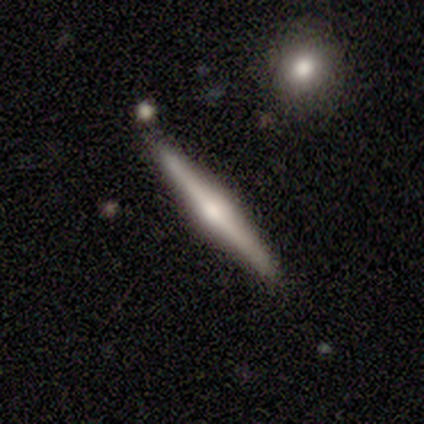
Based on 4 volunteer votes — smooth-or-featured: featured or disk: 75% | smooth: 25% | star or artifact: 0%
  disk-edge-on: yes: 100% | no: 0%
    edge-on-bulge: rounded: 100% | boxy: 0% | none: 0%
  merging: none: 100% | minor disturbance: 0% | major disturbance: 0% | merger: 0%